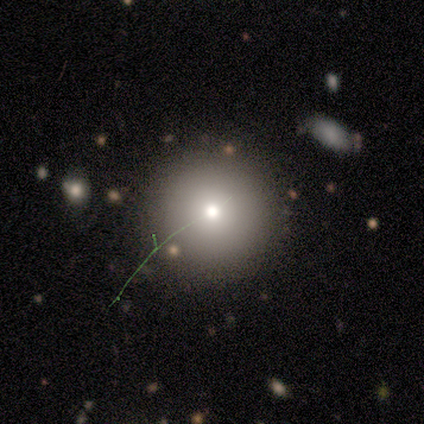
Smooth or featured? 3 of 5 (60%) said smooth. How rounded? 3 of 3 (100%) said round. Merging? 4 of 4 (100%) said none.